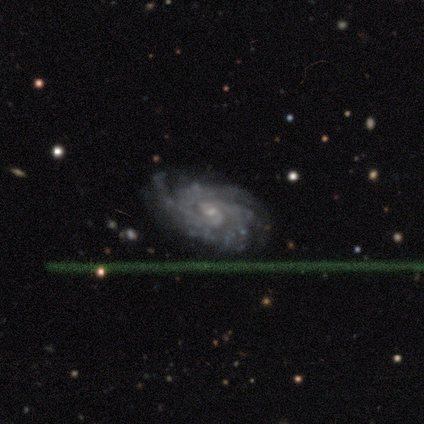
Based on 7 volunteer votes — Volunteers were most divided on "spiral arm count" (3-way tie): 2: 29%, 4: 29%, can't tell: 29%, 3: 14%, 1: 0%, more than 4: 0%. More confident: smooth or featured — featured or disk (100%); edge-on disk — no (100%); spiral arms — yes (100%); bulge size — small (86%); spiral winding — tight (71%); merging — none (71%); bar — no (57%).